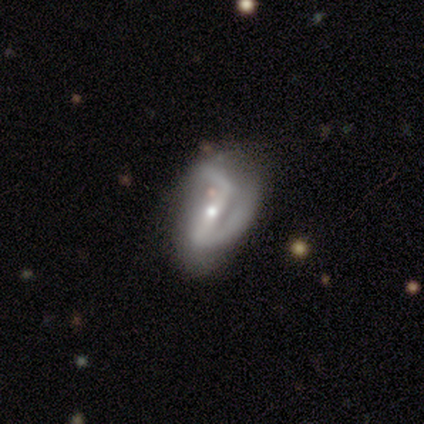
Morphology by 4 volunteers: type=featured or disk (100%); edge-on=no (100%); bar=strong (50%, tied with no); spiral arms=yes (75%); winding=loose (67%); arm count=2 (100%); bulge=moderate (50%, tied with small); merging=none (50%).